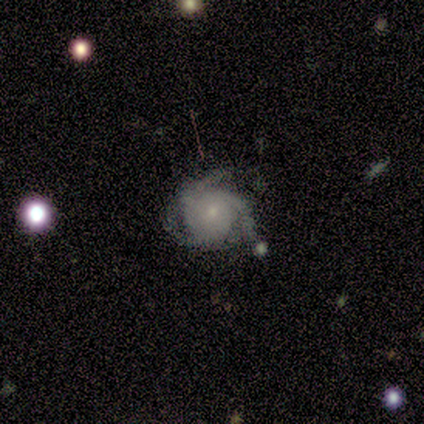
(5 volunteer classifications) A featured or disk galaxy (80%) with no bar (100%), 3 (100%) tight (100%) spiral arms (100%) and a small central bulge (75%).

Vote fractions:
- Smooth or featured? featured or disk: 80% / smooth: 20% / star or artifact: 0%
- Edge-on disk? no: 100% / yes: 0%
- Bar? no: 100% / strong: 0% / weak: 0%
- Spiral arms? yes: 100% / no: 0%
- Spiral winding? tight: 100% / medium: 0% / loose: 0%
- Spiral arm count? 3: 100% / 1: 0% / 2: 0% / 4: 0% / more than 4: 0% / can't tell: 0%
- Bulge size? small: 75% / moderate: 25% / dominant: 0% / large: 0% / none: 0%
- Merging? none: 40% (tied) / minor disturbance: 40% (tied) / major disturbance: 20% / merger: 0%